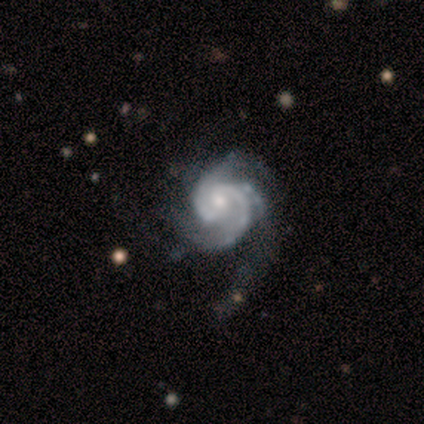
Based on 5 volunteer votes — Smooth or featured: featured or disk — 80% (smooth — 20%)
Edge-on disk: no — 100%
Bar: no — 75% (weak — 25%)
Spiral arms: yes — 100%
Spiral winding: tight — 50% (tied with medium — 50%)
Spiral arm count: 2 — 75% (3 — 25%)
Bulge size: moderate — 100%
Merging: none — 60% (minor disturbance — 20%)